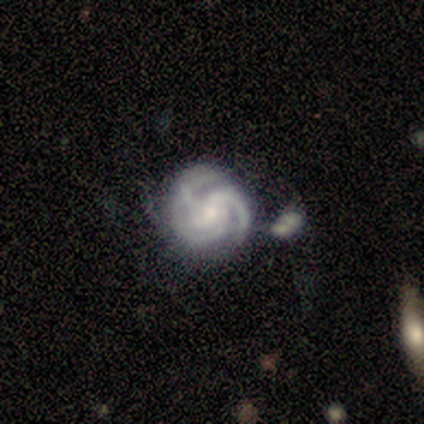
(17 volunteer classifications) smooth-or-featured: featured or disk: 94% | smooth: 6% | star or artifact: 0%
  disk-edge-on: no: 94% | yes: 6%
    bar: no: 53% | weak: 47% | strong: 0%
    has-spiral-arms: yes: 100% | no: 0%
      spiral-winding: tight: 67% | medium: 27% | loose: 7%
      spiral-arm-count: 3: 87% | 2: 7% | 4: 7% | 1: 0% | more than 4: 0% | can't tell: 0%
    bulge-size: small: 73% | moderate: 27% | dominant: 0% | large: 0% | none: 0%
  merging: none: 65% | minor disturbance: 18% | merger: 18% | major disturbance: 0%